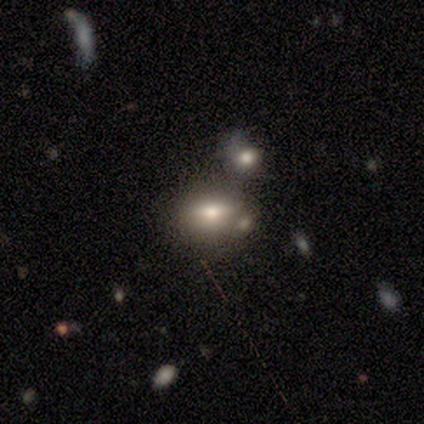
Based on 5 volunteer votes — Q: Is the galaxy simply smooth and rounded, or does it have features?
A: smooth — 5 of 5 (100%).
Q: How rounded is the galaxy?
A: in between — 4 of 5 (80%).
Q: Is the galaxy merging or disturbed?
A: none — 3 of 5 (60%).